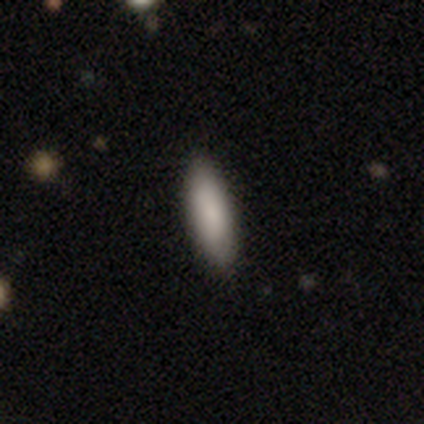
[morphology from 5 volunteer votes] type=smooth (100%); roundness=in between (80%); merging=none (80%).